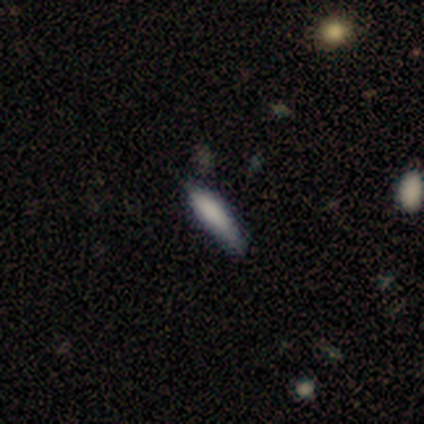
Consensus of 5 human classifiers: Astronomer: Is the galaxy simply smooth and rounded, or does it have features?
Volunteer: smooth — 60%.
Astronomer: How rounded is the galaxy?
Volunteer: cigar-shaped — 100%.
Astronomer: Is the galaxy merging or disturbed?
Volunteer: none — 50%.